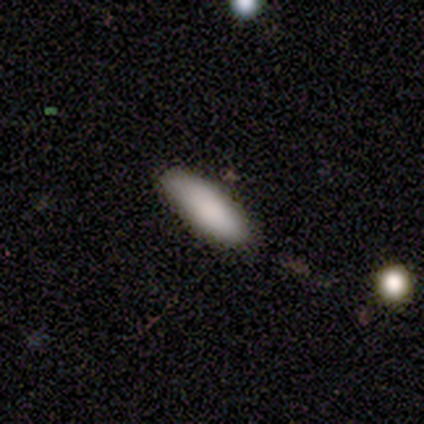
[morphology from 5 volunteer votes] This appears to be a smooth galaxy with no disk features (100%) that is in between round and cigar-shaped (60%). Merging: none (80%).